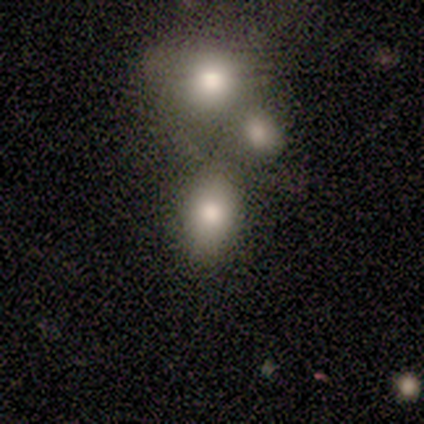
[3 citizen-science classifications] Overall: smooth (67%; star or artifact 33%). How rounded: in between (100%). Merging: none (50%, tied with merger).